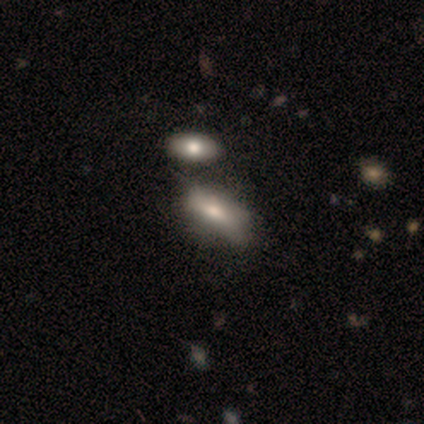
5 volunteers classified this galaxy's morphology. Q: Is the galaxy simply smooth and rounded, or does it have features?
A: smooth — 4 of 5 (80%).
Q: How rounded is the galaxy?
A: in between — 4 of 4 (100%).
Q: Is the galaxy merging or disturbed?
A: major disturbance — 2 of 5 (40%).